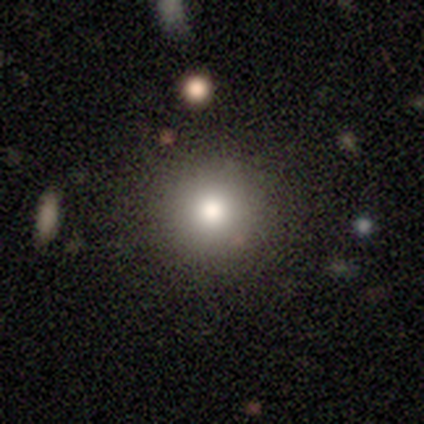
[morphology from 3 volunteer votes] Smooth or featured: star or artifact — 67% (smooth — 33%)